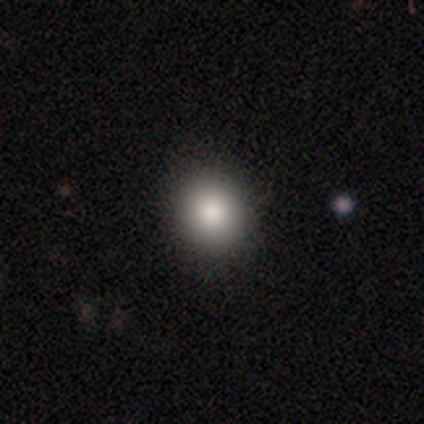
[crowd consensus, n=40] This appears to be a smooth galaxy with no disk features (90%) that is round (81%). Merging: none (69%).